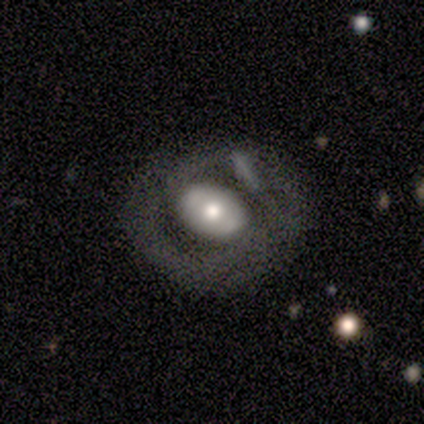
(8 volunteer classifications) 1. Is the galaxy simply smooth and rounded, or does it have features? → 75% featured or disk, 25% smooth, 0% star or artifact.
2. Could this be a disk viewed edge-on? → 100% no, 0% yes.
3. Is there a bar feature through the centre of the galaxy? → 50% strong, 33% no, 17% weak.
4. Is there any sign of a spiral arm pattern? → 67% yes, 33% no.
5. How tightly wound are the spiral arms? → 75% tight, 25% medium, 0% loose.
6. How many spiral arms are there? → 75% 2, 25% can't tell, 0% 1, 0% 3, 0% 4, 0% more than 4.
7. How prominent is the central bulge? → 50% moderate, 33% large, 17% small, 0% dominant, 0% none.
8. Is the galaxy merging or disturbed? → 62% none, 12% minor disturbance, 12% major disturbance, 12% merger.